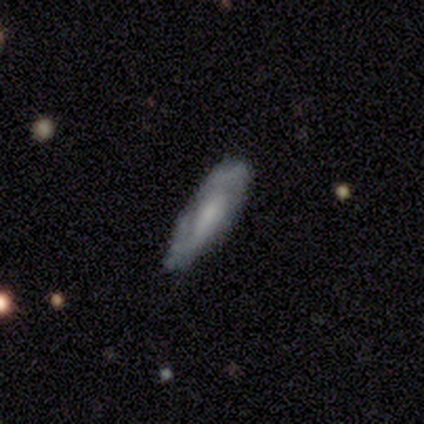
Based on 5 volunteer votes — Smooth or featured? featured or disk (80%)
Edge-on disk? yes (50%, tied with no)
Edge-on bulge? boxy (50%, tied with none)
Merging? none (60%)